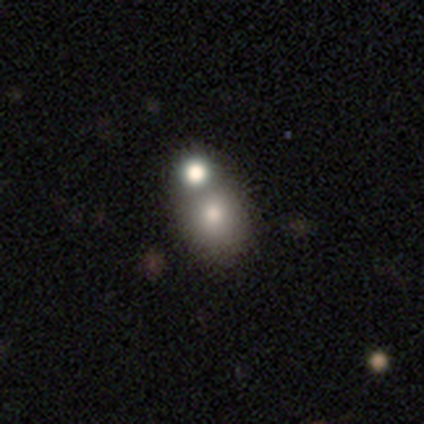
smooth-or-featured: smooth: 100% | featured or disk: 0% | star or artifact: 0%
  how-rounded: round: 40% (tied) | in between: 40% (tied) | cigar-shaped: 20%
  merging: none: 60% | merger: 40% | minor disturbance: 0% | major disturbance: 0%